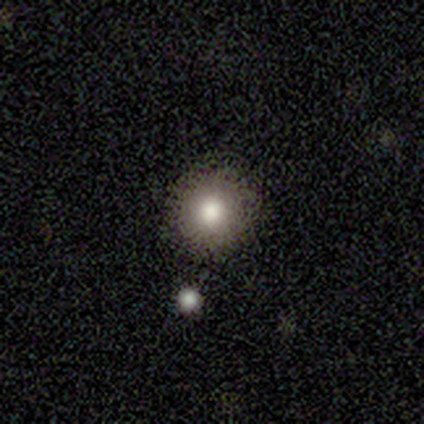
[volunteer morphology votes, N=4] type=smooth (75%); roundness=round (100%); merging=none (100%).